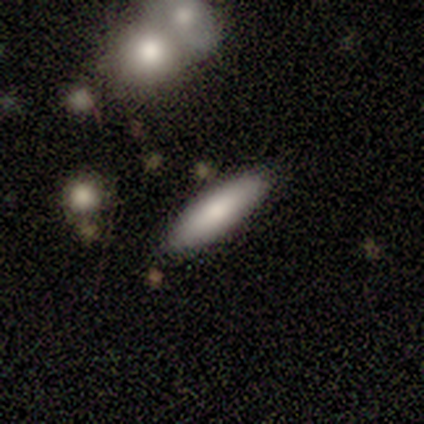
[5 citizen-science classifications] Smooth or featured? smooth (100%)
How rounded? in between (60%)
Merging? none (80%)